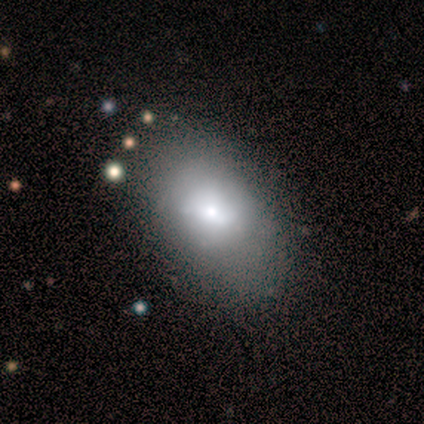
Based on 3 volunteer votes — Volunteers were most divided on "smooth or featured": featured or disk: 67%, smooth: 33%, star or artifact: 0%. More confident: edge-on disk — no (100%); bar — no (100%); spiral arms — no (100%); bulge size — moderate (100%); merging — none (67%).